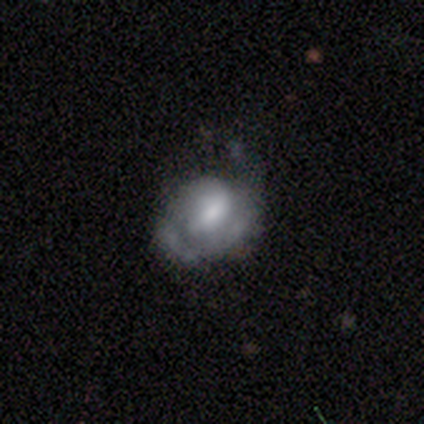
featured or disk 60%, smooth 40%, star or artifact 0%. Down the decision tree: edge-on disk — no (67%); bar — strong (50%, tied with no); spiral arms — yes (50%, tied with no); spiral arm count — 1 (100%); spiral winding — medium (100%); bulge size — large (50%, tied with small); merging — none (60%).